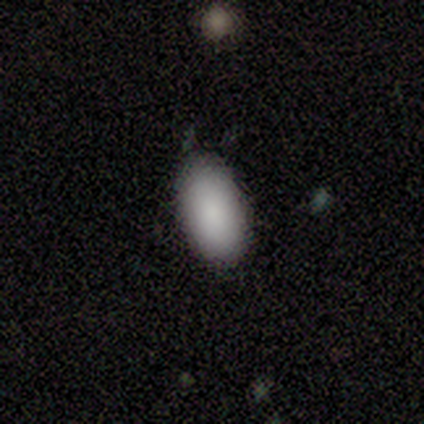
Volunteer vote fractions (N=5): smooth_or_featured: smooth (p=1.00)
how_rounded: in between (p=1.00)
merging: none (p=1.00)